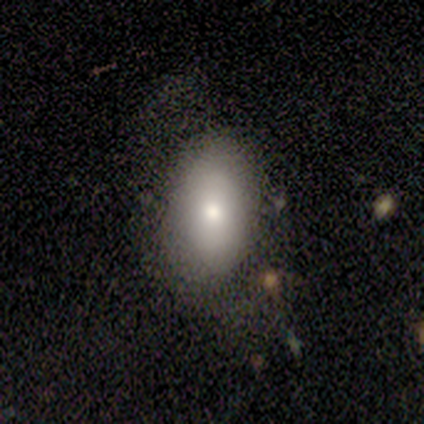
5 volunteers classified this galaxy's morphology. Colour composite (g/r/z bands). It shows a smooth galaxy with no disk features (80%) that is in between round and cigar-shaped (100%). Merging: none (60%).